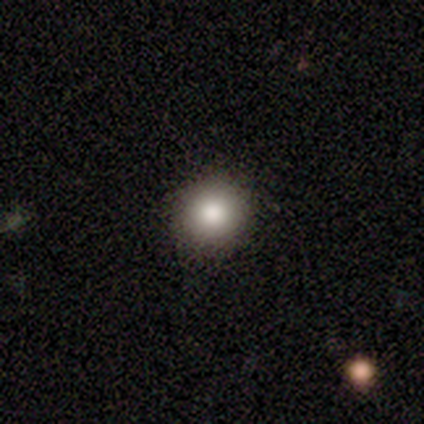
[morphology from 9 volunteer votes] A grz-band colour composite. It shows a smooth galaxy with no disk features (78%) that is round (100%). Merging: none (100%).